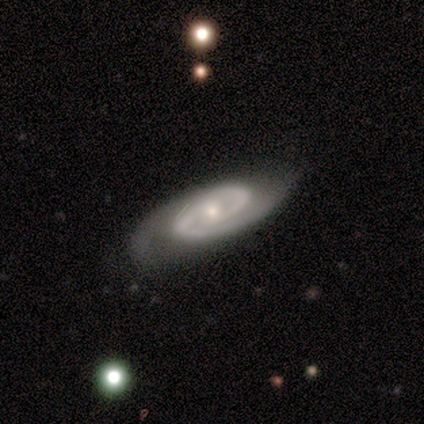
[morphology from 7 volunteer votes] smooth_or_featured: featured or disk (p=1.00)
disk_edge_on: no (p=0.71) [alt: yes p=0.29]
bar: strong (p=0.40) [tied with: no p=0.40]
has_spiral_arms: yes (p=1.00)
spiral_winding: tight (p=0.60) [alt: medium p=0.40]
spiral_arm_count: 2 (p=0.80) [alt: 1 p=0.20]
bulge_size: small (p=0.80) [alt: moderate p=0.20]
merging: none (p=0.71) [alt: minor disturbance p=0.14]